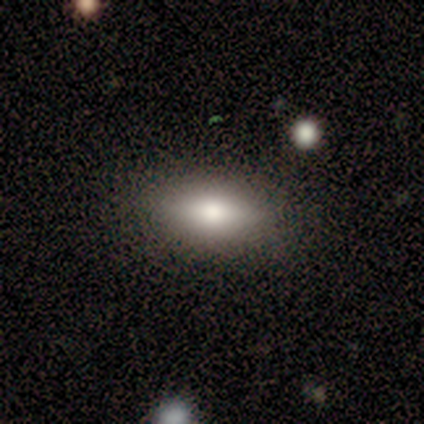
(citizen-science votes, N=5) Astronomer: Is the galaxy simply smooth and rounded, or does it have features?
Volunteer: smooth — 80%.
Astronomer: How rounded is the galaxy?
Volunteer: in between — 75%.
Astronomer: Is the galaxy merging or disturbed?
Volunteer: none — 75%.